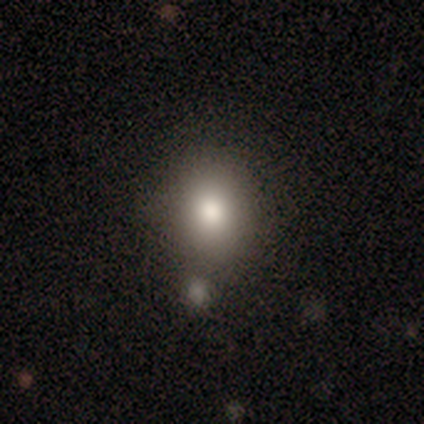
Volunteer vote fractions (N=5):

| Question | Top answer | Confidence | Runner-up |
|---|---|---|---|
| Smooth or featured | smooth | 80% | featured or disk (20%) |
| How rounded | round | 50% | tied: in between (50%) |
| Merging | none | 60% | merger (40%) |